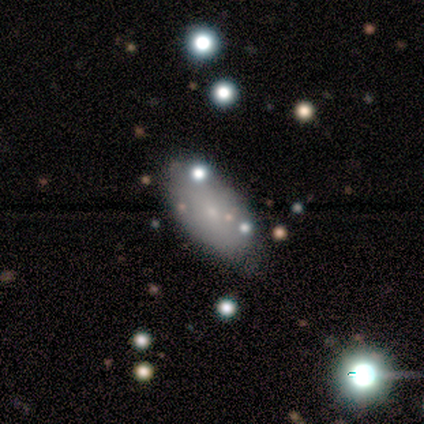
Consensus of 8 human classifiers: Smooth or featured? smooth (75%)
How rounded? in between (100%)
Merging? none (86%)